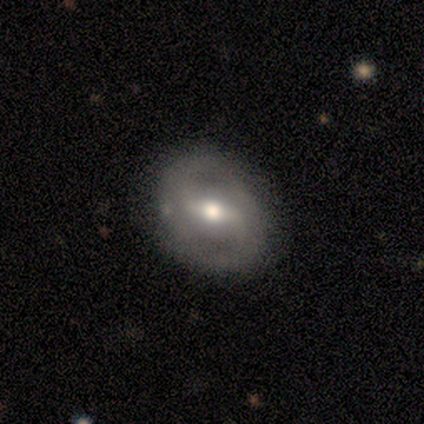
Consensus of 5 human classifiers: Smooth or featured? featured or disk (60%)
Edge-on disk? no (67%)
Bar? strong (100%)
Spiral arms? yes (50%, tied with no)
Spiral winding? tight (100%)
Spiral arm count? 3 (100%)
Bulge size? moderate (100%)
Merging? none (100%)